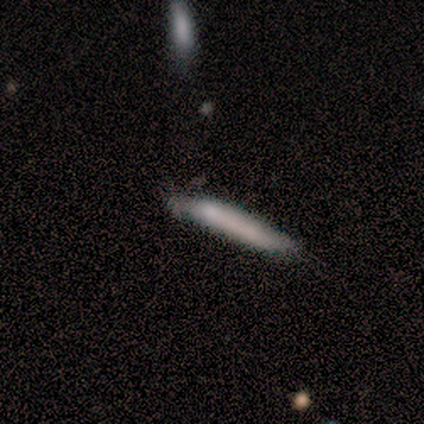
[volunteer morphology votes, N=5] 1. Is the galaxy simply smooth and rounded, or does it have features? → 80% smooth, 20% star or artifact, 0% featured or disk.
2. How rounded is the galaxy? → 100% cigar-shaped, 0% round, 0% in between.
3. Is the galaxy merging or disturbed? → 100% none, 0% minor disturbance, 0% major disturbance, 0% merger.